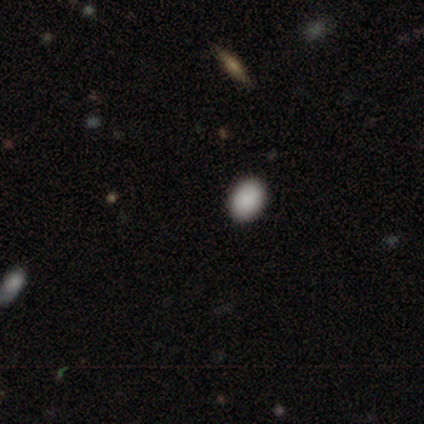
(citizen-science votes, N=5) Smooth or featured? smooth (100%)
How rounded? in between (100%)
Merging? none (80%)